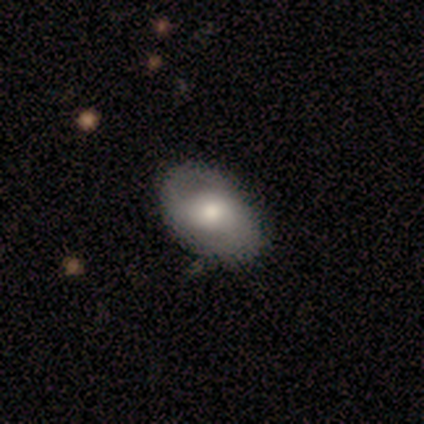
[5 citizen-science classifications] Smooth or featured? 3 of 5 (60%) said featured or disk. Edge-on disk? 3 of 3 (100%) said no. Bar? 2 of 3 (67%) said weak. Spiral arms? 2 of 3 (67%) said yes. Spiral winding? 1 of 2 (50%, tied with loose) said tight. Spiral arm count? 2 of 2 (100%) said 2. Bulge size? 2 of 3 (67%) said large. Merging? 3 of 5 (60%) said none.